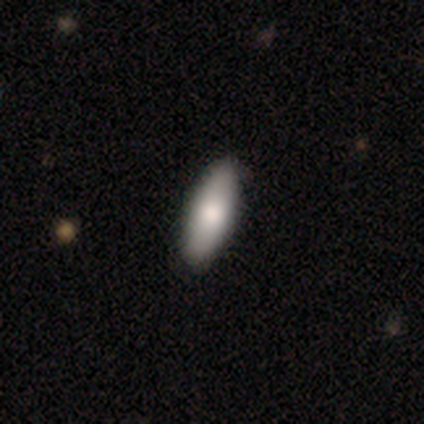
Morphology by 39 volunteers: Smooth or featured? smooth (77%)
How rounded? in between (67%)
Merging? none (58%)